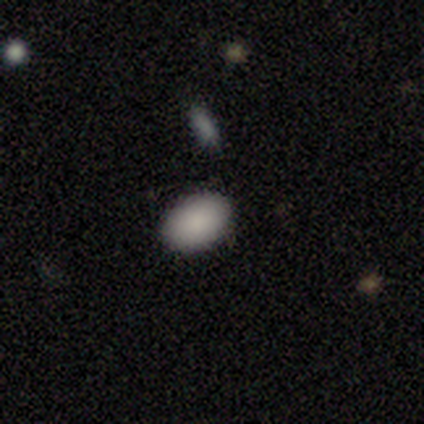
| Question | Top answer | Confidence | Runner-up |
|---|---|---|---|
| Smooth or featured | smooth | 100% | — |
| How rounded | in between | 100% | — |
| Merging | none | 86% | minor disturbance (14%) |